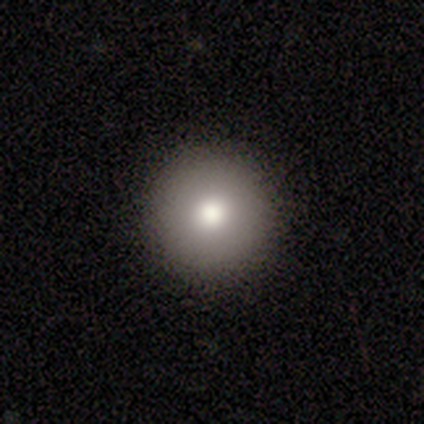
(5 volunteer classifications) This appears to be a smooth galaxy with no disk features (100%) that is round (100%). Merging: none (100%).